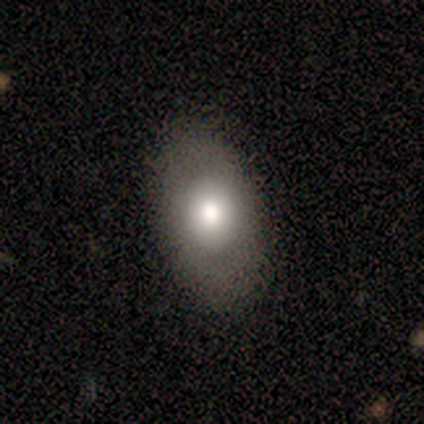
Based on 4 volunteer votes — Overall: featured or disk (50%; smooth 25%). Edge-on disk: no (100%). Bar: no (100%). Spiral arms: no (100%). Bulge size: large (50%, tied with moderate). Merging: none (100%).